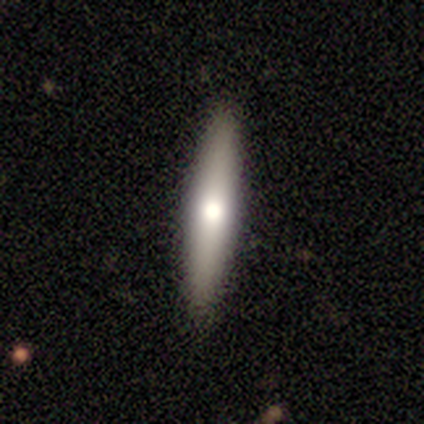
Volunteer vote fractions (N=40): smooth_or_featured: smooth (p=0.55) [alt: featured or disk p=0.42]
how_rounded: cigar-shaped (p=0.86) [alt: in between p=0.14]
merging: none (p=0.64) [alt: minor disturbance p=0.03]